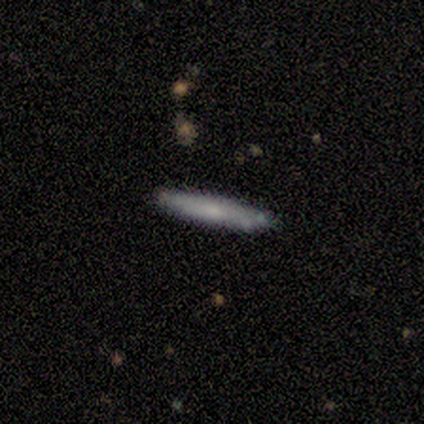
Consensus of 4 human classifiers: Smooth or featured?
  - featured or disk: 75% *
  - smooth: 25%
  - star or artifact: 0%
Edge-on disk?
  - yes: 100% *
  - no: 0%
Edge-on bulge?
  - none: 67% *
  - boxy: 33%
  - rounded: 0%
Merging?
  - none: 75% *
  - major disturbance: 25%
  - minor disturbance: 0%
  - merger: 0%